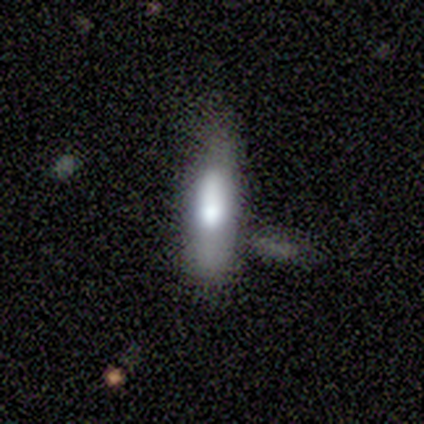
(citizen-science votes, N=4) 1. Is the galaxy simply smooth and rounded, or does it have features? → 50% smooth, 25% featured or disk, 25% star or artifact.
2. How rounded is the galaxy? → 100% cigar-shaped, 0% round, 0% in between.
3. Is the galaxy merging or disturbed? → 67% none, 33% minor disturbance, 0% major disturbance, 0% merger.